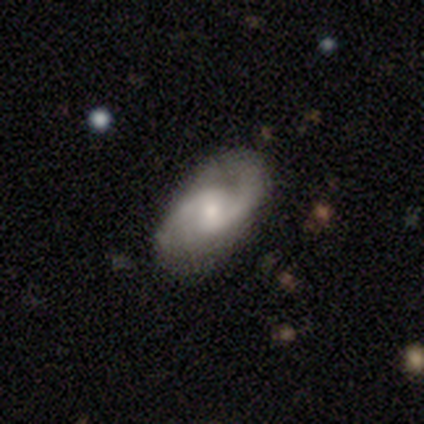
A featured or disk galaxy (80%) with no bar (50%), 2 (100%) loose (75%) spiral arms (100%) and a moderate central bulge (50%, tied with small).

Vote fractions:
- Smooth or featured? featured or disk: 80% / smooth: 20% / star or artifact: 0%
- Edge-on disk? no: 100% / yes: 0%
- Bar? no: 50% / strong: 25% / weak: 25%
- Spiral arms? yes: 100% / no: 0%
- Spiral winding? loose: 75% / medium: 25% / tight: 0%
- Spiral arm count? 2: 100% / 1: 0% / 3: 0% / 4: 0% / more than 4: 0% / can't tell: 0%
- Bulge size? moderate: 50% (tied) / small: 50% (tied) / dominant: 0% / large: 0% / none: 0%
- Merging? none: 100% / minor disturbance: 0% / major disturbance: 0% / merger: 0%